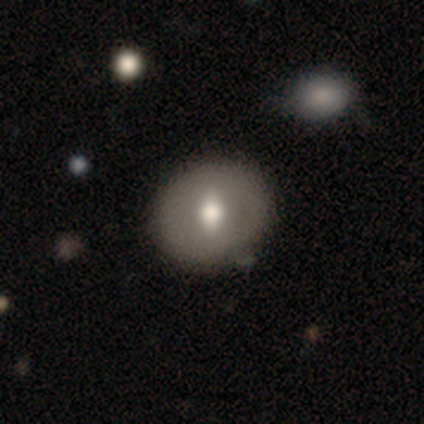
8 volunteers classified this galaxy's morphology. Smooth or featured? 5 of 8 (62%) said smooth. How rounded? 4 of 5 (80%) said round. Merging? 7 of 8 (88%) said none.